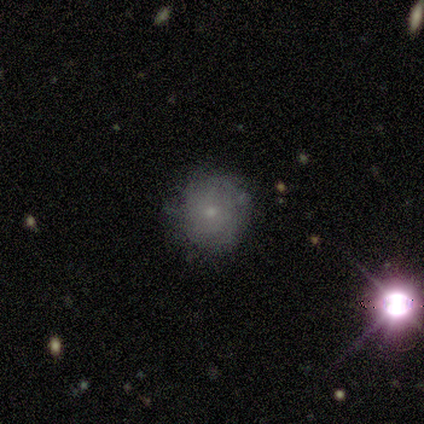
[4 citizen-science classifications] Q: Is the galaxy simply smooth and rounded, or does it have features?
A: smooth — 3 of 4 (75%).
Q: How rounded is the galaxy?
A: round — 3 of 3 (100%).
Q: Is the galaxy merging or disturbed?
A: none — 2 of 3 (67%).